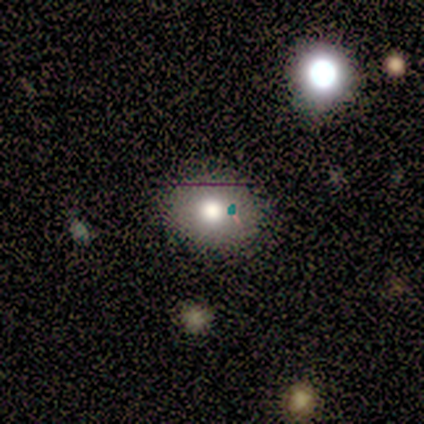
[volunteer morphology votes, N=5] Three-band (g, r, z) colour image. It shows a smooth galaxy with no disk features (60%) that is round (100%). Merging: minor disturbance (67%).